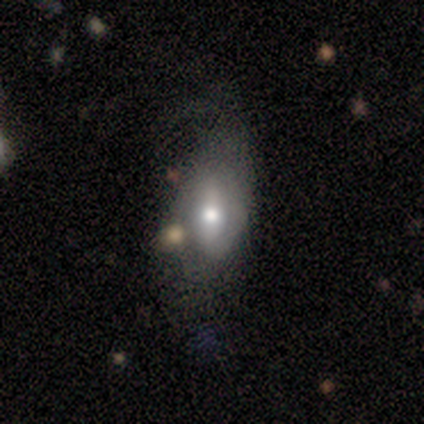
A featured or disk galaxy (80%) with a weak bar (67%), 2 (100%) medium (67%) spiral arms (100%) and a moderate central bulge (67%).

Vote fractions:
- Smooth or featured? featured or disk: 80% / smooth: 20% / star or artifact: 0%
- Edge-on disk? no: 75% / yes: 25%
- Bar? weak: 67% / no: 33% / strong: 0%
- Spiral arms? yes: 100% / no: 0%
- Spiral winding? medium: 67% / loose: 33% / tight: 0%
- Spiral arm count? 2: 100% / 1: 0% / 3: 0% / 4: 0% / more than 4: 0% / can't tell: 0%
- Bulge size? moderate: 67% / large: 33% / dominant: 0% / small: 0% / none: 0%
- Merging? none: 60% / minor disturbance: 40% / major disturbance: 0% / merger: 0%